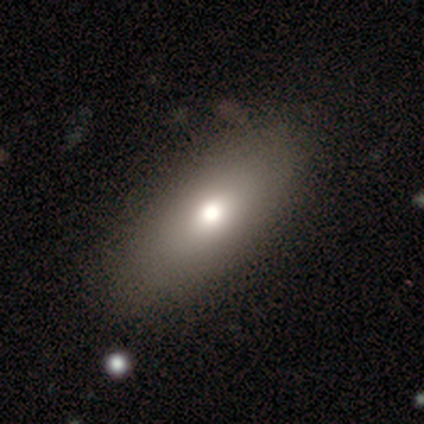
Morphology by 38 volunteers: Smooth or featured? smooth (63%)
How rounded? in between (88%)
Merging? none (83%)